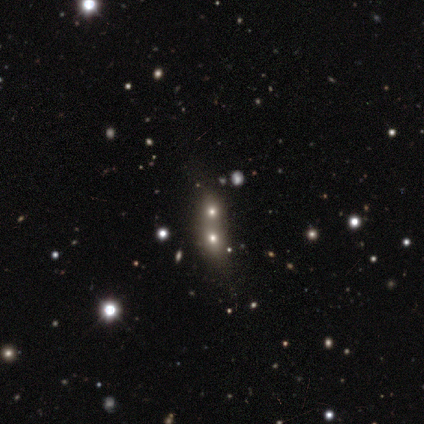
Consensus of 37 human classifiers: Overall: smooth (54%; featured or disk 24%). How rounded: in between (55%; round 30%). Merging: merger (79%).